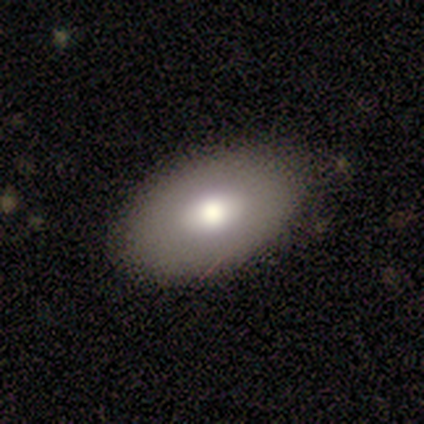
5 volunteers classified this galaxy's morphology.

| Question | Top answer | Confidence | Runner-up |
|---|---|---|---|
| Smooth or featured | smooth | 60% | featured or disk (40%) |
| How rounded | in between | 100% | — |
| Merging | none | 80% | minor disturbance (20%) |